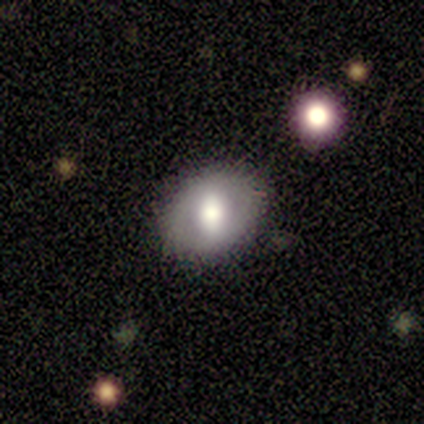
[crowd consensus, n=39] A smooth galaxy with no disk features (72%) that is in between round and cigar-shaped (68%).

Vote fractions:
- Smooth or featured? smooth: 72% / featured or disk: 23% / star or artifact: 5%
- How rounded? in between: 68% / round: 32% / cigar-shaped: 0%
- Merging? none: 78% / minor disturbance: 16% / merger: 5% / major disturbance: 0%